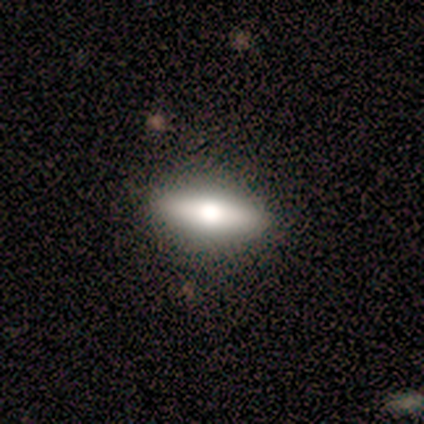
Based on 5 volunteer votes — Q: Smooth or featured?
A: featured or disk (60%); runner-up: smooth (40%)
Q: Edge-on disk?
A: yes (67%); runner-up: no (33%)
Q: Edge-on bulge?
A: rounded (100%)
Q: Merging?
A: none (100%)